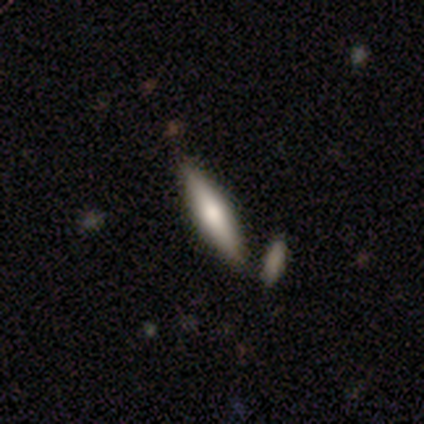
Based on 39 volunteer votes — This is likely a smooth galaxy (62%). How rounded: clearly cigar-shaped (88%). Merging: clearly none (85%).